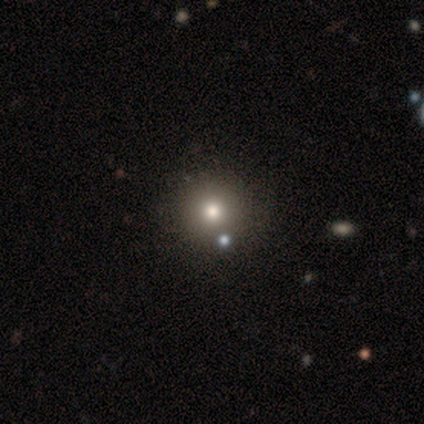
smooth 50%, featured or disk 25%, star or artifact 25%. Down the decision tree: how rounded — round (100%); merging — none (100%).